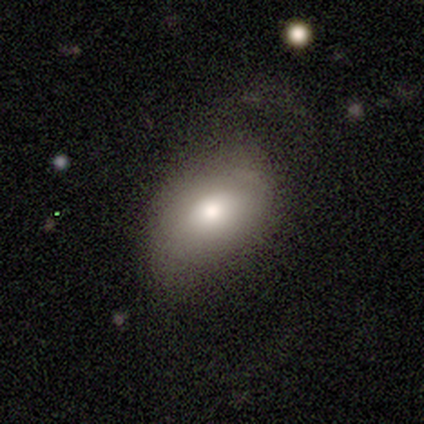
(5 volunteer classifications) Smooth or featured? smooth (100%)
How rounded? in between (100%)
Merging? none (40%, tied with major disturbance)